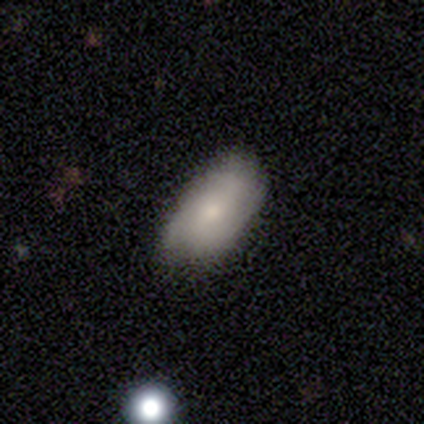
smooth_or_featured: smooth (p=1.00)
how_rounded: in between (p=1.00)
merging: none (p=0.50) [tied with: minor disturbance p=0.50]